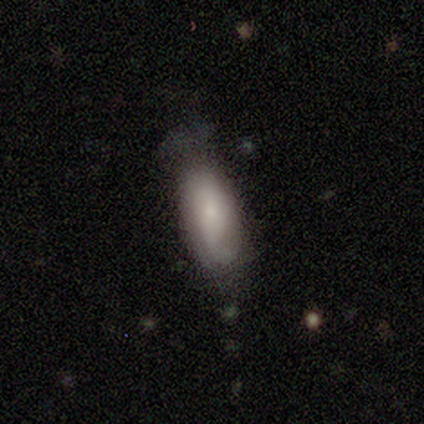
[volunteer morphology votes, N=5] smooth-or-featured: smooth: 60% | featured or disk: 40% | star or artifact: 0%
  how-rounded: in between: 67% | cigar-shaped: 33% | round: 0%
  merging: minor disturbance: 60% | none: 40% | major disturbance: 0% | merger: 0%